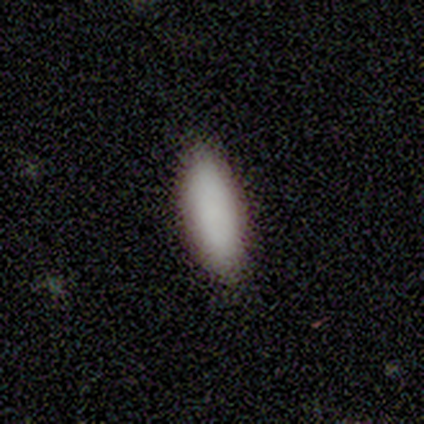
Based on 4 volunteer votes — Volunteers were most divided on "how rounded": in between: 67%, cigar-shaped: 33%, round: 0%. More confident: merging — none (100%); smooth or featured — smooth (75%).